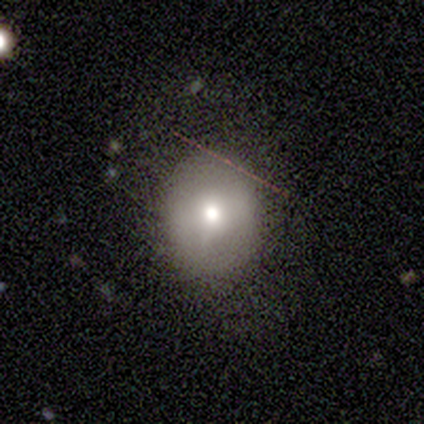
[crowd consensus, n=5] Overall: smooth (80%). How rounded: round (50%, tied with in between). Merging: none (75%).